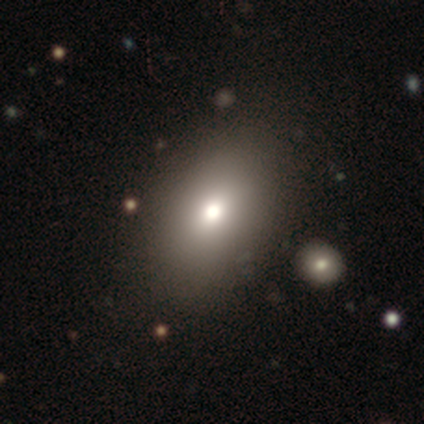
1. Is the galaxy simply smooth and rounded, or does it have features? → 60% smooth, 20% featured or disk, 20% star or artifact.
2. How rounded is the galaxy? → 100% in between, 0% round, 0% cigar-shaped.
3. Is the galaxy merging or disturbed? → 50% none, 25% major disturbance, 25% merger, 0% minor disturbance.